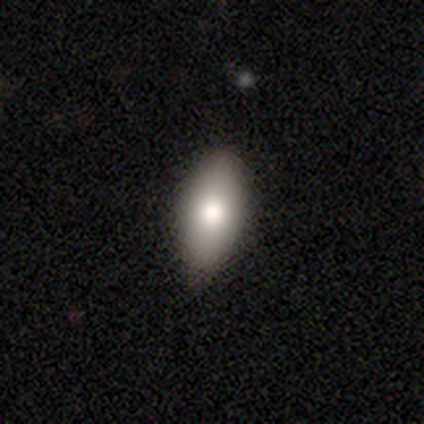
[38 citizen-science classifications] Q: Smooth or featured?
A: smooth (74%); runner-up: star or artifact (18%)
Q: How rounded?
A: in between (93%); runner-up: round (4%)
Q: Merging?
A: none (77%); runner-up: minor disturbance (19%)